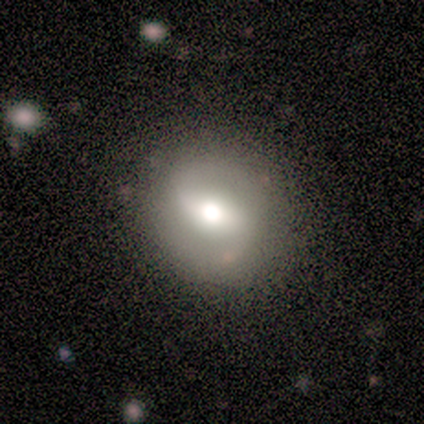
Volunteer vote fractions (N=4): Volunteers were most divided on "spiral arms" (2-way tie): yes: 50%, no: 50%; "bulge size" (2-way tie): large: 50%, moderate: 50%, dominant: 0%, small: 0%, none: 0%; "merging" (3-way tie): none: 33%, minor disturbance: 33%, major disturbance: 33%, merger: 0%. More confident: edge-on disk — no (100%); bar — weak (100%); spiral winding — medium (100%); spiral arm count — 2 (100%); smooth or featured — featured or disk (50%).